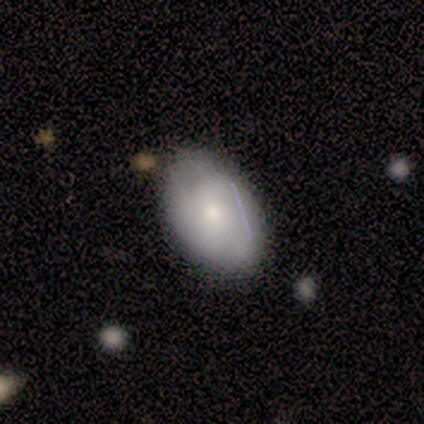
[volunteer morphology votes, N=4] smooth_or_featured: smooth (p=0.75) [alt: featured or disk p=0.25]
how_rounded: in between (p=1.00)
merging: none (p=1.00)